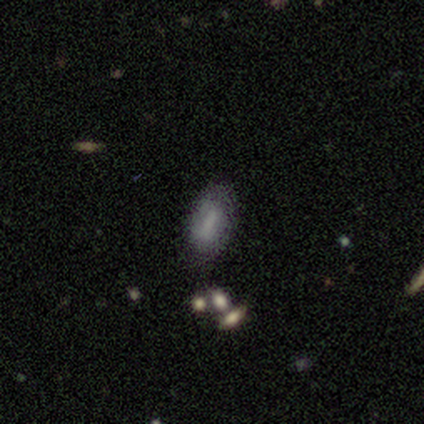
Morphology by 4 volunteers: type=smooth (100%); roundness=in between (50%, tied with cigar-shaped); merging=none (75%).